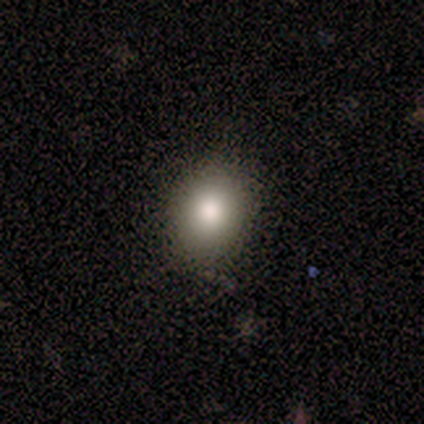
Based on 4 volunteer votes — A smooth galaxy with no disk features (100%) that is round (75%).

Vote fractions:
- Smooth or featured? smooth: 100% / featured or disk: 0% / star or artifact: 0%
- How rounded? round: 75% / in between: 25% / cigar-shaped: 0%
- Merging? none: 100% / minor disturbance: 0% / major disturbance: 0% / merger: 0%